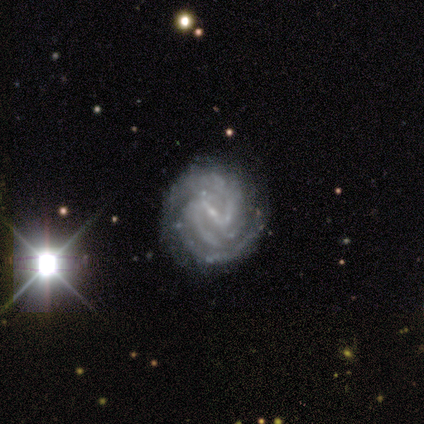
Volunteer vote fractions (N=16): Q: Smooth or featured?
A: featured or disk (94%); runner-up: star or artifact (6%)
Q: Edge-on disk?
A: no (93%); runner-up: yes (7%)
Q: Bar?
A: strong (57%); runner-up: weak (21%)
Q: Spiral arms?
A: yes (93%); runner-up: no (7%)
Q: Spiral winding?
A: tight (69%); runner-up: medium (31%)
Q: Spiral arm count?
A: 3 (54%); runner-up: 2 (31%)
Q: Bulge size?
A: small (71%); runner-up: none (21%)
Q: Merging?
A: none (93%); runner-up: minor disturbance (7%)